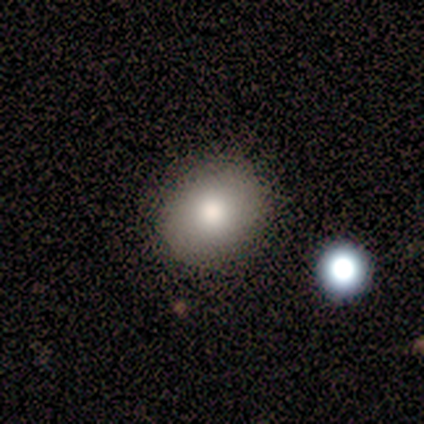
This is clearly a smooth galaxy (100%). How rounded: clearly in between (80%). Merging: clearly none (80%).